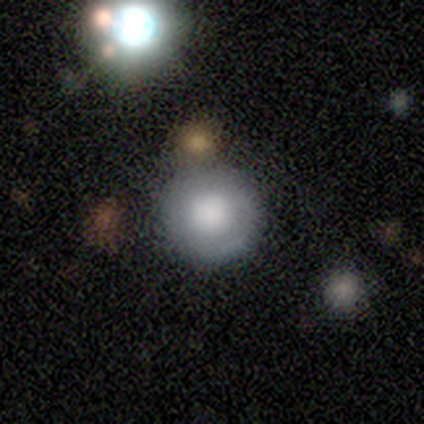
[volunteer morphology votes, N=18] Smooth or featured: smooth — 72% (featured or disk — 28%)
How rounded: round — 100%
Merging: none — 61% (minor disturbance — 28%)